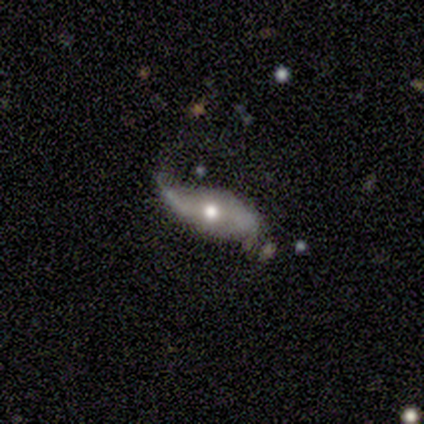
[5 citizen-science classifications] This is clearly a featured or disk galaxy (80%). It is clearly not viewed edge-on (100%). Bar: likely no (75%). Spiral arm pattern: likely yes (75%). Spiral arm count: likely 2 (67%). Spiral winding: clearly loose (100%). Central bulge: likely moderate (75%). Merging: likely none (60%).